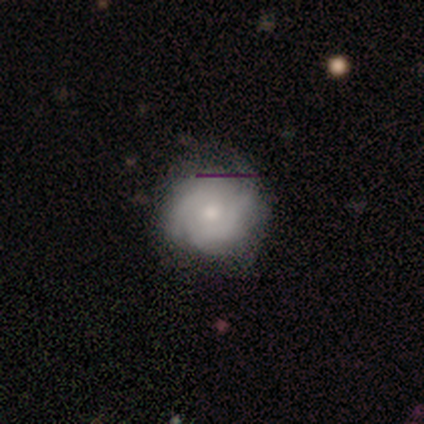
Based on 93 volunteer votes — Q: Smooth or featured?
A: featured or disk (72%); runner-up: smooth (20%)
Q: Edge-on disk?
A: no (97%); runner-up: yes (3%)
Q: Bar?
A: no (86%); runner-up: weak (11%)
Q: Spiral arms?
A: yes (94%); runner-up: no (6%)
Q: Spiral winding?
A: tight (67%); runner-up: medium (25%)
Q: Spiral arm count?
A: can't tell (38%); runner-up: 2 (23%)
Q: Bulge size?
A: moderate (60%); runner-up: small (34%)
Q: Merging?
A: none (84%); runner-up: minor disturbance (14%)